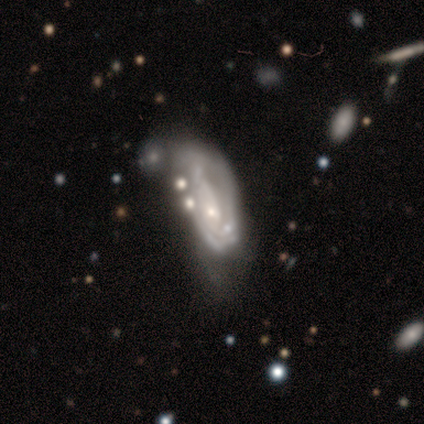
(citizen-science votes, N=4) featured or disk 75%, smooth 25%, star or artifact 0%. Down the decision tree: edge-on disk — no (100%); bar — no (100%); spiral arms — yes (100%); spiral arm count — 2 (33%, tied with 3 and can't tell); spiral winding — medium (67%); bulge size — small (67%); merging — none (50%, tied with major disturbance).